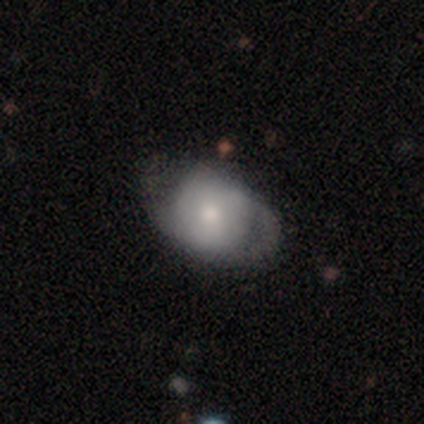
smooth_or_featured: smooth (p=0.53) [alt: featured or disk p=0.37]
how_rounded: in between (p=0.66) [alt: round p=0.34]
merging: none (p=0.52) [alt: minor disturbance p=0.33]